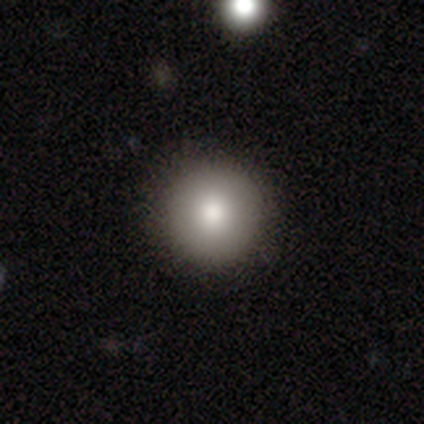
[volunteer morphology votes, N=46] This is clearly a smooth galaxy (83%). How rounded: clearly round (89%). Merging: clearly none (93%).